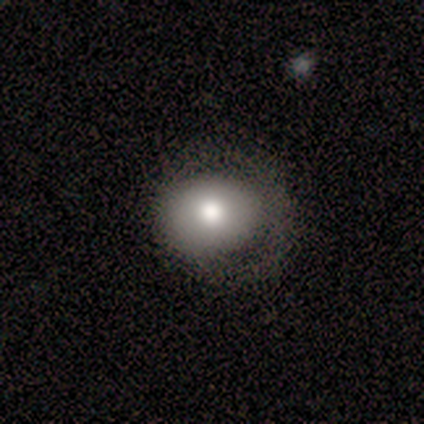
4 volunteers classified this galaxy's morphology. Volunteers were most divided on "how rounded": in between: 67%, round: 33%, cigar-shaped: 0%. More confident: smooth or featured — smooth (75%); merging — none (67%).